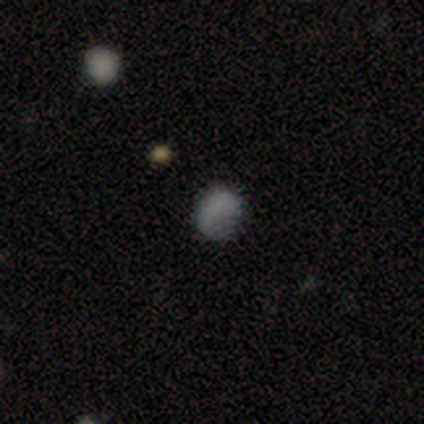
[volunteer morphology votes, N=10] Q: Smooth or featured?
A: smooth (50%); runner-up: star or artifact (30%)
Q: How rounded?
A: round (60%); runner-up: in between (40%)
Q: Merging?
A: minor disturbance (57%); runner-up: none (29%)